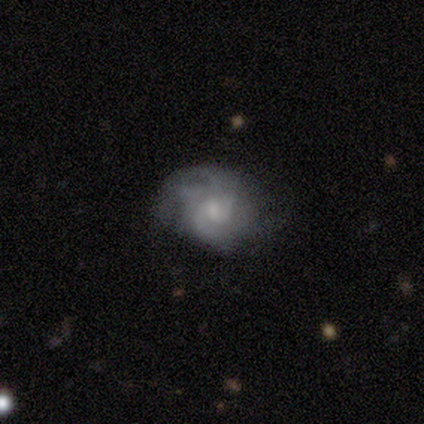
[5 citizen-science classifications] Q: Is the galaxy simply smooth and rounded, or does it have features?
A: featured or disk — 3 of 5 (60%).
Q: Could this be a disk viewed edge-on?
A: no — 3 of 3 (100%).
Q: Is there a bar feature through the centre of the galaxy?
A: no — 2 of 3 (67%).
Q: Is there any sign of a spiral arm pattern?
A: yes — 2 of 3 (67%).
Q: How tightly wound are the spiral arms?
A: tight — 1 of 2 (50%, tied with medium).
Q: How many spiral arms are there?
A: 3 — 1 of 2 (50%, tied with can't tell).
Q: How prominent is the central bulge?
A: moderate — 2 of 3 (67%).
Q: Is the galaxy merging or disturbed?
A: none — 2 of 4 (50%).